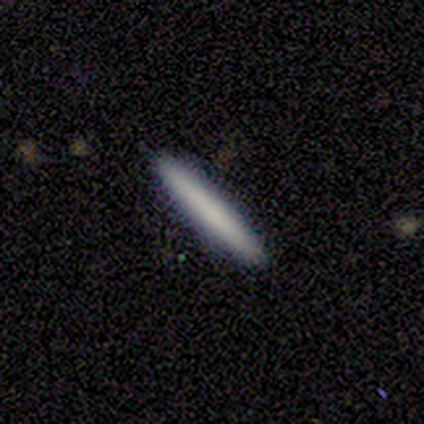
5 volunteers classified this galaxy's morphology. Smooth or featured? 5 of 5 (100%) said smooth. How rounded? 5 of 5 (100%) said cigar-shaped. Merging? 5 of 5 (100%) said none.